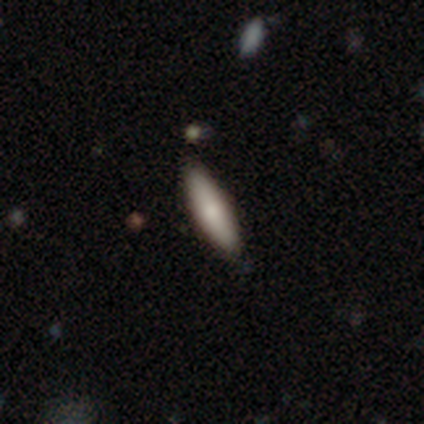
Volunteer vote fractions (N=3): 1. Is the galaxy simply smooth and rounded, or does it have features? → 67% smooth, 33% featured or disk, 0% star or artifact.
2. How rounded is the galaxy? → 100% cigar-shaped, 0% round, 0% in between.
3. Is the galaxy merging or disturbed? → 100% none, 0% minor disturbance, 0% major disturbance, 0% merger.